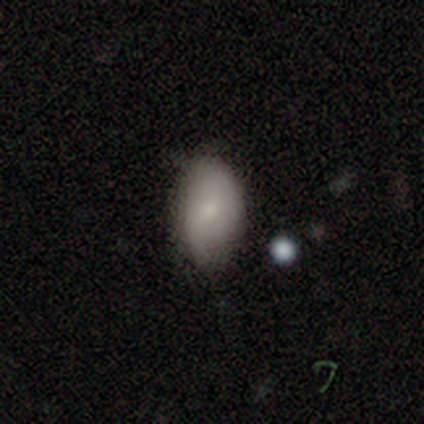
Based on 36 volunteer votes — Volunteers were most divided on "merging": none: 46%, minor disturbance: 37%, major disturbance: 9%, merger: 9%. More confident: how rounded — in between (86%); smooth or featured — smooth (58%).